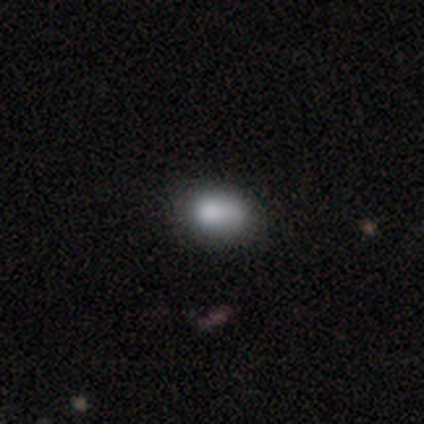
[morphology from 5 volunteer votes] Overall: smooth (80%). How rounded: in between (75%). Merging: minor disturbance (60%; none 20%).